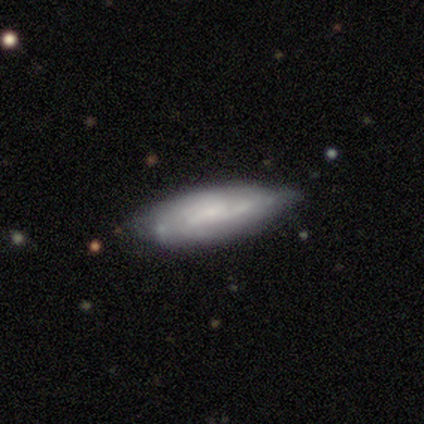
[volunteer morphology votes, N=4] A featured or disk galaxy (75%) with a strong bar (33%, tied with weak and no), tight (67%) spiral arms (100%) and a moderate central bulge (67%).

Vote fractions:
- Smooth or featured? featured or disk: 75% / smooth: 25% / star or artifact: 0%
- Edge-on disk? no: 100% / yes: 0%
- Bar? strong: 33% (tied) / weak: 33% (tied) / no: 33% (tied)
- Spiral arms? yes: 100% / no: 0%
- Spiral winding? tight: 67% / medium: 33% / loose: 0%
- Spiral arm count? can't tell: 67% / 2: 33% / 1: 0% / 3: 0% / 4: 0% / more than 4: 0%
- Bulge size? moderate: 67% / small: 33% / dominant: 0% / large: 0% / none: 0%
- Merging? none: 100% / minor disturbance: 0% / major disturbance: 0% / merger: 0%